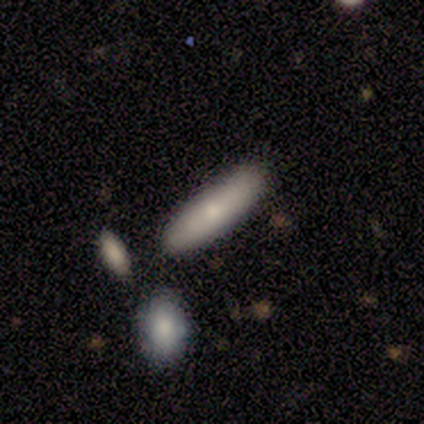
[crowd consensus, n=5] Overall: smooth (100%). How rounded: cigar-shaped (80%). Merging: none (60%; minor disturbance 40%).